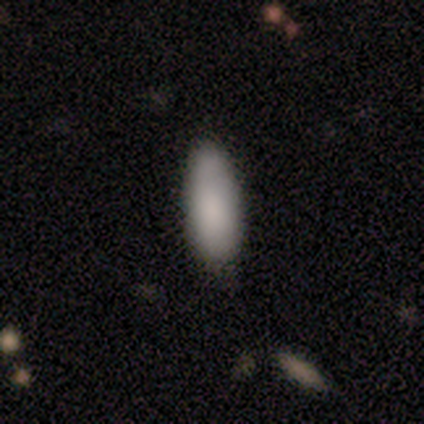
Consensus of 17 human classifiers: Volunteers were most divided on "merging": none: 69%, minor disturbance: 31%, major disturbance: 0%, merger: 0%. More confident: smooth or featured — smooth (88%); how rounded — in between (87%).